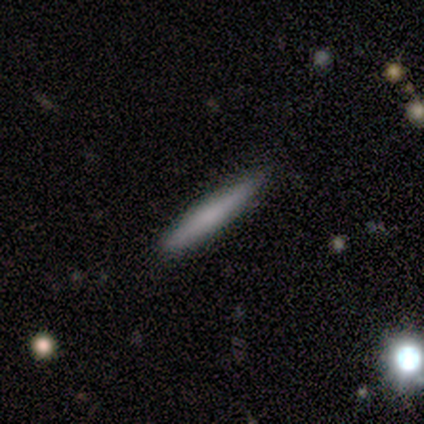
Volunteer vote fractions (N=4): Smooth or featured? smooth (100%)
How rounded? cigar-shaped (100%)
Merging? none (75%)